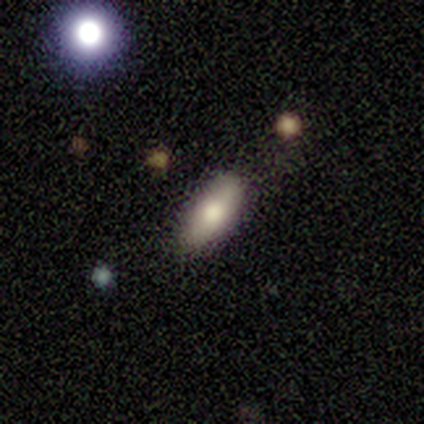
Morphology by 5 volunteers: smooth_or_featured: smooth (p=0.40) [tied with: featured or disk p=0.40]
how_rounded: in between (p=1.00)
merging: none (p=1.00)